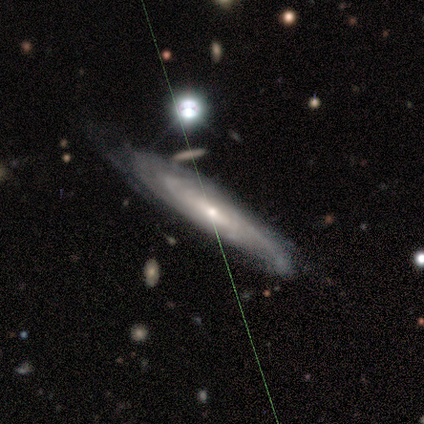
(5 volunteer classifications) Smooth or featured: featured or disk — 80% (smooth — 20%)
Edge-on disk: yes — 50% (tied with no — 50%)
Edge-on bulge: rounded — 100%
Merging: none — 60% (minor disturbance — 20%)